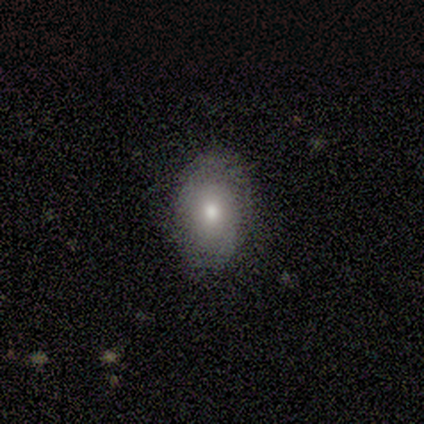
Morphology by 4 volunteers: Smooth or featured?
  - smooth: 75% *
  - featured or disk: 25%
  - star or artifact: 0%
How rounded?
  - in between: 67% *
  - round: 33%
  - cigar-shaped: 0%
Merging?
  - none: 75% *
  - minor disturbance: 25%
  - major disturbance: 0%
  - merger: 0%